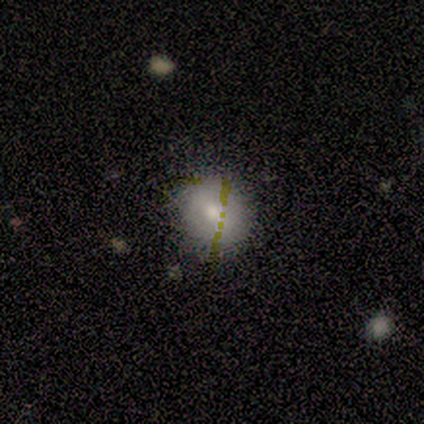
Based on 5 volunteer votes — Q: Smooth or featured?
A: smooth (60%); runner-up: featured or disk (20%)
Q: How rounded?
A: round (33%); tied with: in between (33%); cigar-shaped (33%)
Q: Merging?
A: none (100%)